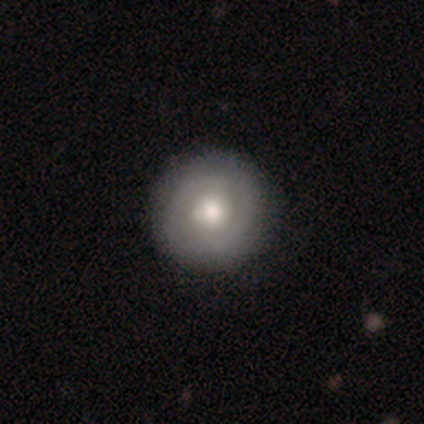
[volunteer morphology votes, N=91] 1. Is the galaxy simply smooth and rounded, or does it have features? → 47% smooth, 46% featured or disk, 7% star or artifact.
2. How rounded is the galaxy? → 95% round, 5% in between, 0% cigar-shaped.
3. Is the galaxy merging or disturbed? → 80% none, 15% minor disturbance, 5% major disturbance, 0% merger.